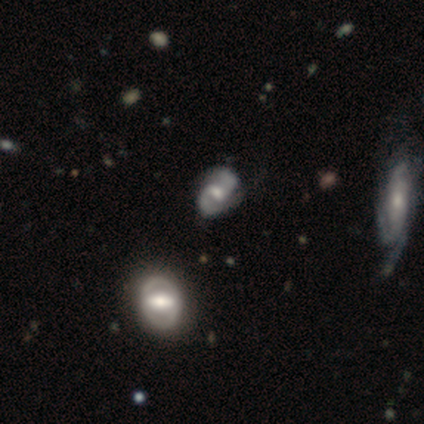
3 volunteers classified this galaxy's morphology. featured or disk 100%, smooth 0%, star or artifact 0%. Down the decision tree: edge-on disk — no (100%); bar — weak (67%); spiral arms — yes (67%); spiral arm count — 2 (100%); spiral winding — tight (100%); bulge size — moderate (67%); merging — none (100%).